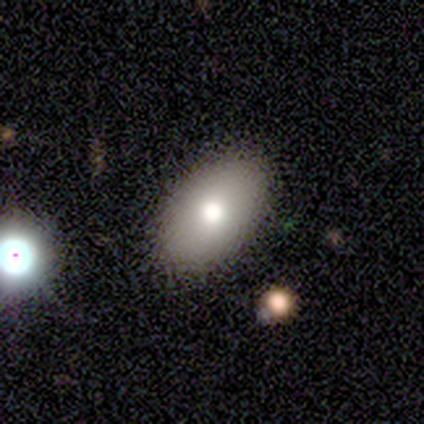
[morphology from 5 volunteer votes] Overall: smooth (100%). How rounded: in between (100%). Merging: none (100%).